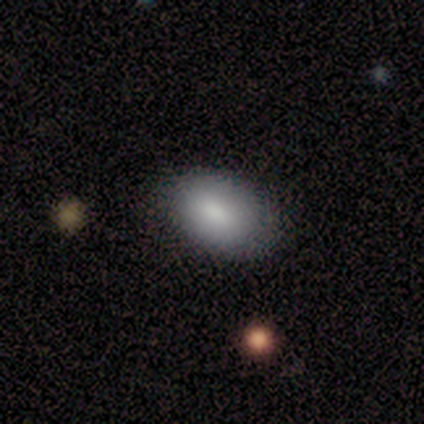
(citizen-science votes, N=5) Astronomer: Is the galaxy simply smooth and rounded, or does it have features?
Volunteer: smooth — 100%.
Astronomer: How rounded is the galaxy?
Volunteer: in between — 80%.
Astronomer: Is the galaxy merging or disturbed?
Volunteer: none — 100%.